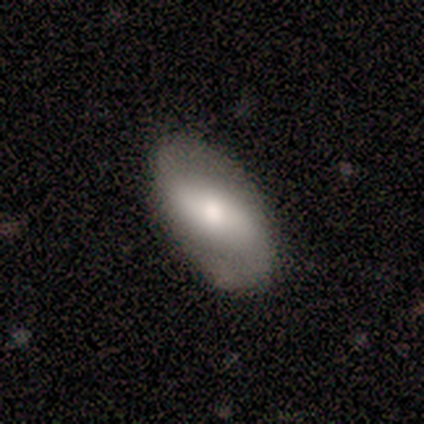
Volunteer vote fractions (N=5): smooth_or_featured: featured or disk (p=0.60) [alt: smooth p=0.20]
disk_edge_on: no (p=1.00)
bar: strong (p=0.33) [tied with: weak p=0.33, no p=0.33]
has_spiral_arms: yes (p=1.00)
spiral_winding: loose (p=0.67) [alt: tight p=0.33]
spiral_arm_count: 2 (p=1.00)
bulge_size: moderate (p=0.67) [alt: small p=0.33]
merging: none (p=0.75) [alt: minor disturbance p=0.25]